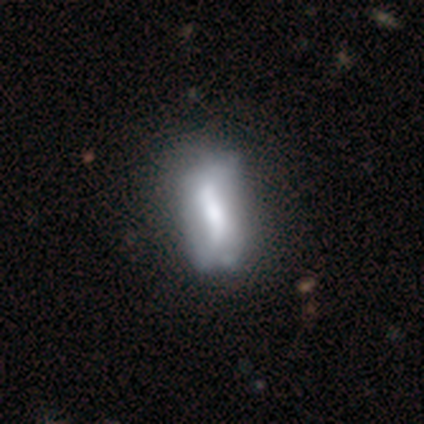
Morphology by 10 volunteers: This appears to be a featured or disk galaxy (60%) with no bar (75%), 2 (100%) tight (50%, tied with medium) spiral arms (50%, tied with no) and a dominant central bulge (25%, tied with large, moderate and small). Merging: none (70%).